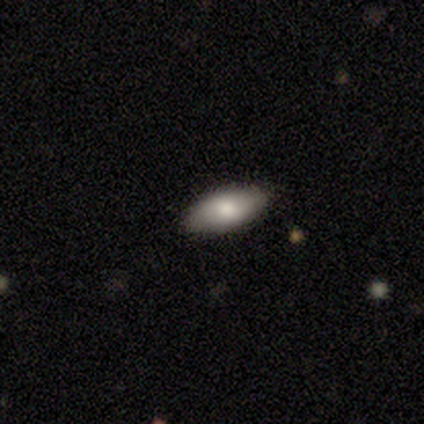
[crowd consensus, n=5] Morphology: type=smooth (60%); roundness=in between (100%); merging=none (100%).